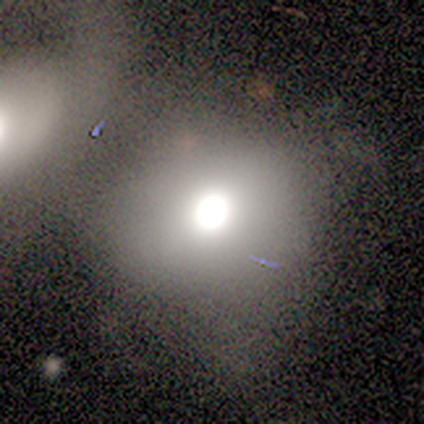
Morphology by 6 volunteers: Smooth or featured? 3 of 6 (50%) said featured or disk. Edge-on disk? 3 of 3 (100%) said no. Bar? 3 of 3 (100%) said no. Spiral arms? 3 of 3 (100%) said no. Bulge size? 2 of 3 (67%) said moderate. Merging? 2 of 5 (40%) said merger.